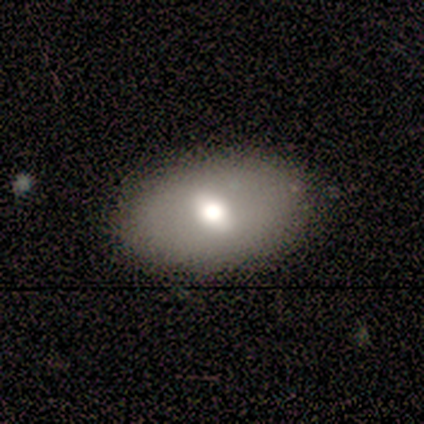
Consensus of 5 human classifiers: Morphology: type=smooth (80%); roundness=in between (100%); merging=none (100%).